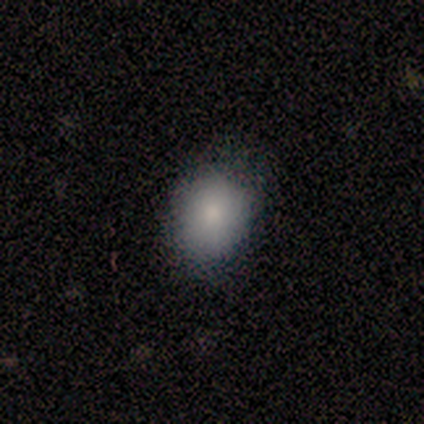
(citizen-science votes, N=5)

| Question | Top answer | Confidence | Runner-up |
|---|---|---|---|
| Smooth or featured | smooth | 80% | star or artifact (20%) |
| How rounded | round | 50% | tied: in between (50%) |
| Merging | none | 50% | tied: minor disturbance (50%) |